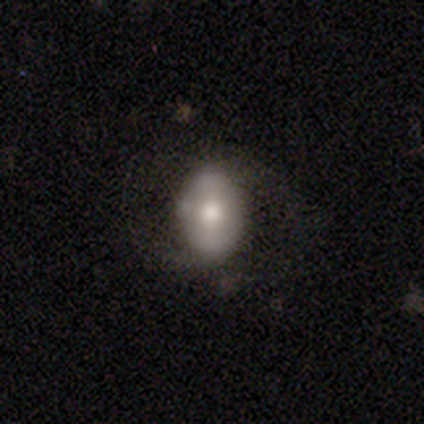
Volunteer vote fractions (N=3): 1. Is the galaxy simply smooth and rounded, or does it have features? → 67% smooth, 33% featured or disk, 0% star or artifact.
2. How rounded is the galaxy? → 100% in between, 0% round, 0% cigar-shaped.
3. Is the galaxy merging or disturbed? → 67% none, 33% major disturbance, 0% minor disturbance, 0% merger.